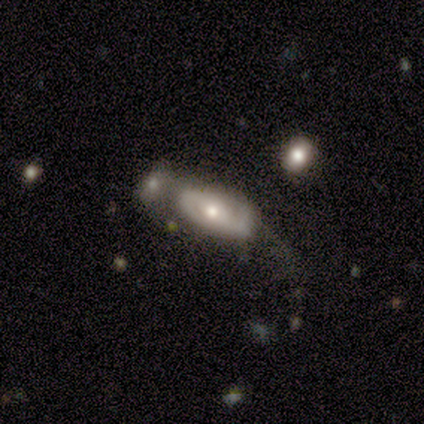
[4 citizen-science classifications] Morphology: type=featured or disk (100%); edge-on=no (100%); bar=no (75%); spiral arms=yes (50%, tied with no); winding=tight (50%, tied with medium); arm count=2 (100%); bulge=moderate (50%, tied with small); merging=merger (50%).